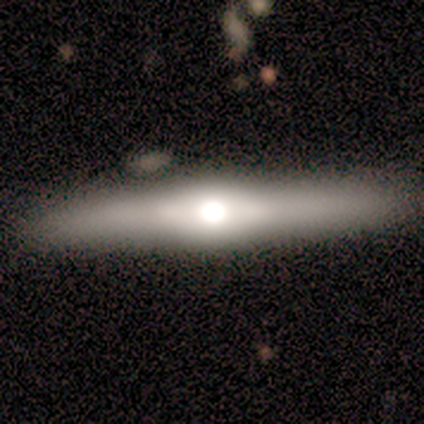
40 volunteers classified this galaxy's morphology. This is likely a featured or disk galaxy (62%). It is clearly viewed edge-on (92%). Edge-on bulge: clearly rounded (91%). Merging: clearly none (82%).